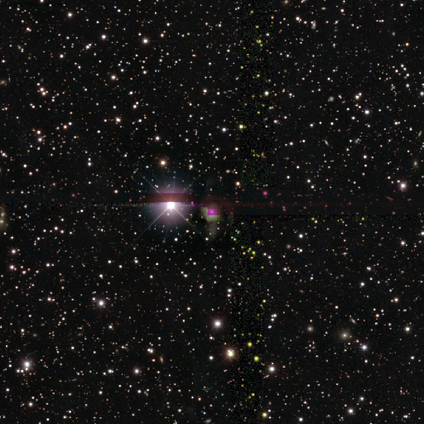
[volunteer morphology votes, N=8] This is clearly a star or artifact rather than a galaxy (100%).